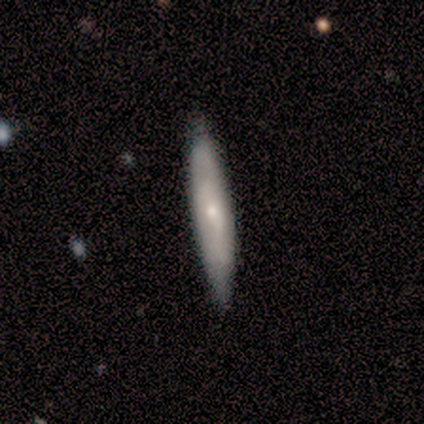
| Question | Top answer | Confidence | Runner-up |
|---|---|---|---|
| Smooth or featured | smooth | 60% | featured or disk (40%) |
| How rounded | cigar-shaped | 67% | in between (33%) |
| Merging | none | 100% | — |